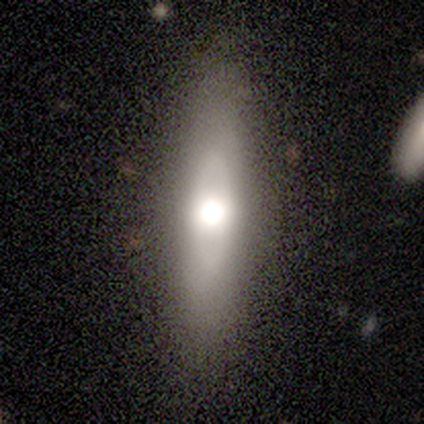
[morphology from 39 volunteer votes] smooth-or-featured: smooth: 46% (tied) | featured or disk: 46% (tied) | star or artifact: 8%
  how-rounded: cigar-shaped: 83% | in between: 17% | round: 0%
  merging: none: 94% | minor disturbance: 6% | major disturbance: 0% | merger: 0%